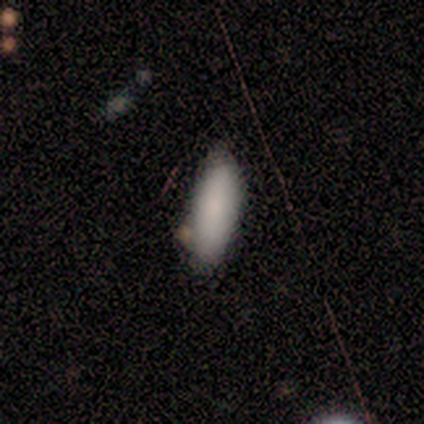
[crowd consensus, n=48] Smooth or featured: smooth — 92% (featured or disk — 4%)
How rounded: in between — 73% (cigar-shaped — 27%)
Merging: none — 65% (minor disturbance — 28%)